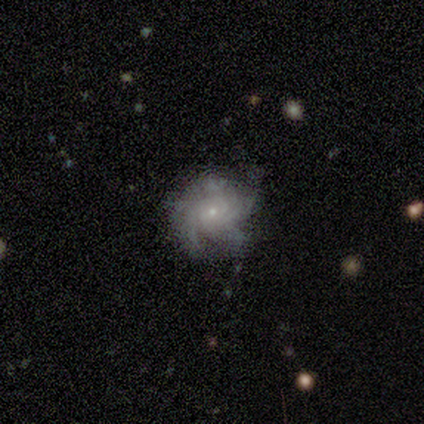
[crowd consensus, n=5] This is clearly a featured or disk galaxy (80%). It is clearly not viewed edge-on (100%). Bar: clearly no (100%). Spiral arm pattern: clearly yes (100%). Spiral arm count: possibly 4 (50%, tied with can't tell). Spiral winding: likely tight (75%). Central bulge: clearly small (100%). Merging: likely none (60%).